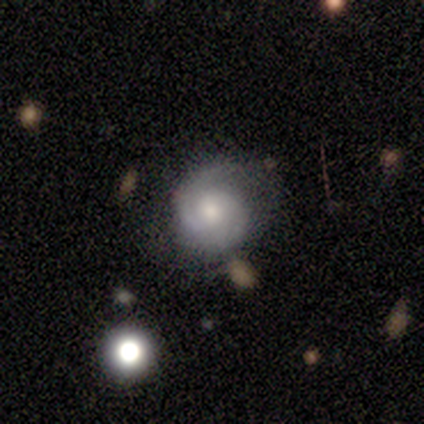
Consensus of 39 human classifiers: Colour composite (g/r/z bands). It shows a featured or disk galaxy (74%) with no bar (79%), 2 (69%) medium (52%) spiral arms (100%) and a moderate central bulge (52%). Merging: none (76%).